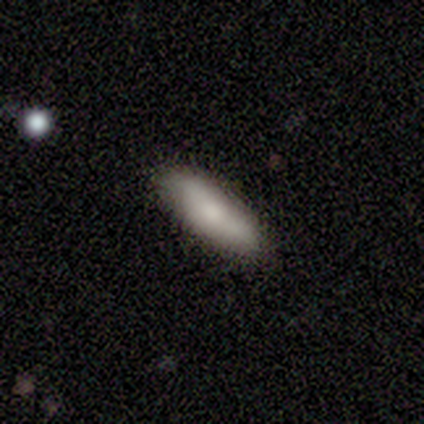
Morphology: type=smooth (40%, tied with featured or disk); roundness=in between (100%); merging=none (100%).